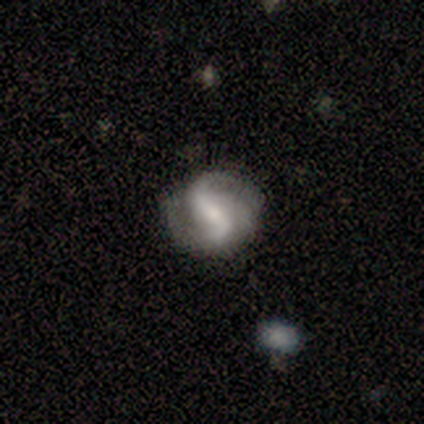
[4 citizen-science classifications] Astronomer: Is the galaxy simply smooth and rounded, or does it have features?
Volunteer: featured or disk — 75%.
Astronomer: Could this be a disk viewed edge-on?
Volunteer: no — 100%.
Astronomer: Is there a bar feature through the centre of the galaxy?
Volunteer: no — 67%.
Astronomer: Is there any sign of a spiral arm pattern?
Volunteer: yes — 100%.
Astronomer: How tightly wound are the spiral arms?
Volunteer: loose — 67%.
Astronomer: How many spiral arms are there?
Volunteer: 2 — 67%.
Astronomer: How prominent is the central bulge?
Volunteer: small — 67%.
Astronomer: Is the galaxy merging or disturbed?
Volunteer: none — 50%.